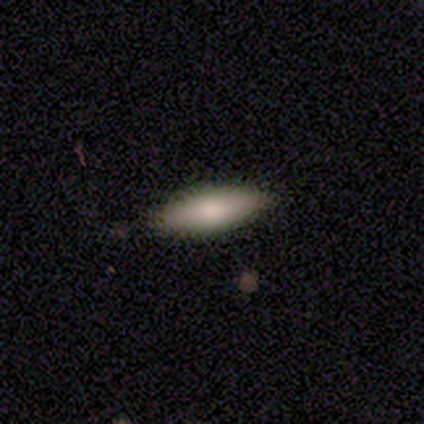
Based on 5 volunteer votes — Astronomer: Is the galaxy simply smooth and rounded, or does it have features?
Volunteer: smooth — 80%.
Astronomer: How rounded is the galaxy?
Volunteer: in between — 75%.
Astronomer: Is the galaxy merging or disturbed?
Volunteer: none — 75%.